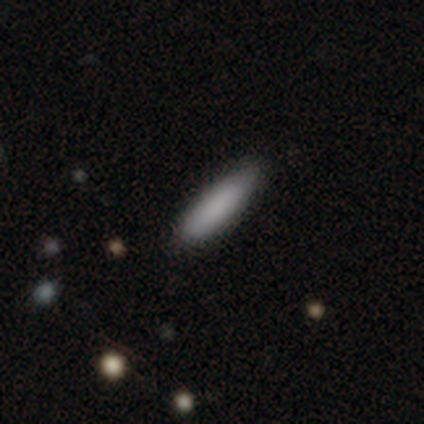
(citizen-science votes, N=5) Overall: smooth (80%). How rounded: cigar-shaped (100%). Merging: none (100%).